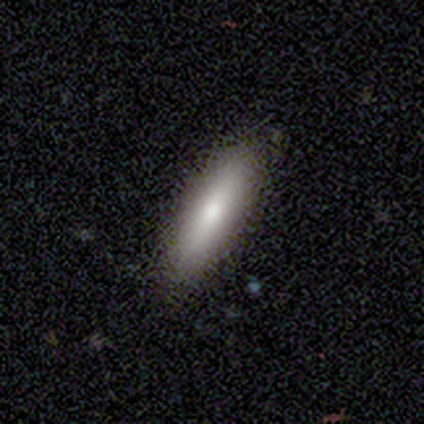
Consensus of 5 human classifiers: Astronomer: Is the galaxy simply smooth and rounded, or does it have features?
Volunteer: smooth — 80%.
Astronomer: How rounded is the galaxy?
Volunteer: cigar-shaped — 75%.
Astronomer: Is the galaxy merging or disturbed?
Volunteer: none — 80%.